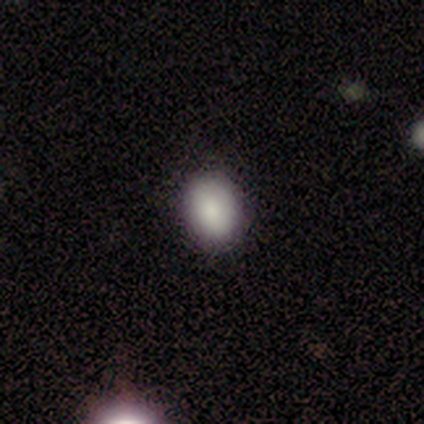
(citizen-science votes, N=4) Overall: smooth (100%). How rounded: round (75%). Merging: none (50%, tied with minor disturbance).